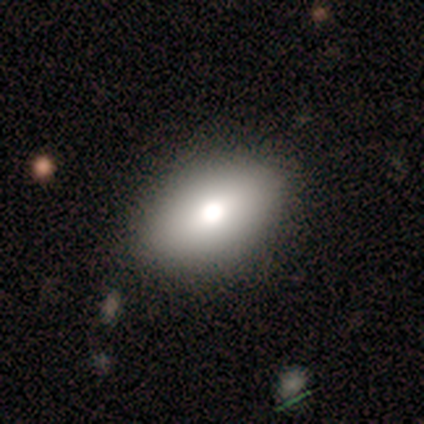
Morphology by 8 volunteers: Smooth or featured: smooth — 75% (featured or disk — 12%)
How rounded: in between — 100%
Merging: none — 86% (minor disturbance — 14%)